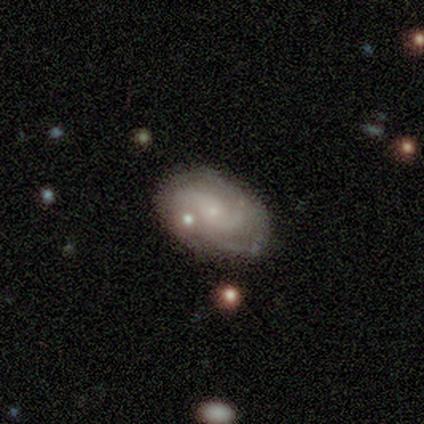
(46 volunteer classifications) Smooth or featured?
  - featured or disk: 76% *
  - smooth: 17%
  - star or artifact: 7%
Edge-on disk?
  - no: 97% *
  - yes: 3%
Bar?
  - no: 85% *
  - weak: 12%
  - strong: 3%
Spiral arms?
  - yes: 88% *
  - no: 12%
Spiral winding?
  - tight: 43% * (tied)
  - medium: 43% * (tied)
  - loose: 13%
Spiral arm count?
  - 2: 47% * (tied)
  - 3: 47% * (tied)
  - 1: 3%
  - can't tell: 3%
  - 4: 0%
  - more than 4: 0%
Bulge size?
  - small: 71% *
  - moderate: 24%
  - none: 6%
  - dominant: 0%
  - large: 0%
Merging?
  - none: 49% *
  - minor disturbance: 33%
  - merger: 12%
  - major disturbance: 7%